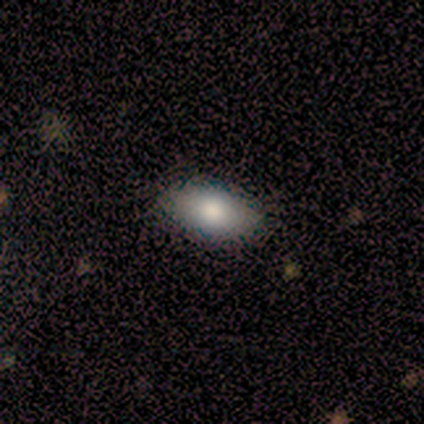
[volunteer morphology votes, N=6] Smooth or featured?
  - smooth: 83% *
  - star or artifact: 17%
  - featured or disk: 0%
How rounded?
  - in between: 100% *
  - round: 0%
  - cigar-shaped: 0%
Merging?
  - none: 60% *
  - minor disturbance: 40%
  - major disturbance: 0%
  - merger: 0%